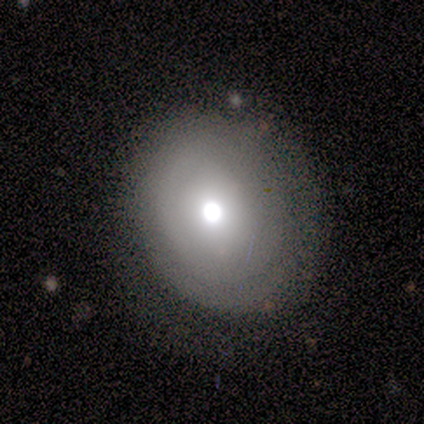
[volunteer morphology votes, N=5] Overall: featured or disk (60%; smooth 20%). Edge-on disk: no (100%). Bar: no (100%). Spiral arms: yes (67%; no 33%). Spiral arm count: can't tell (100%). Spiral winding: tight (100%). Bulge size: moderate (67%; dominant 33%). Merging: none (75%).